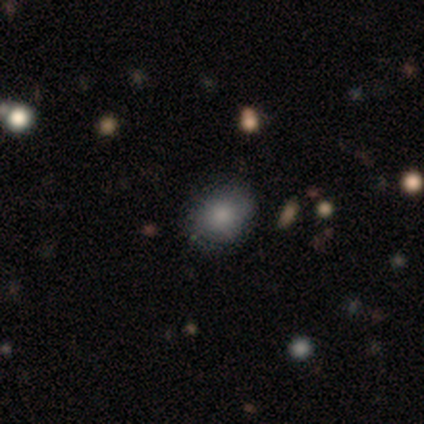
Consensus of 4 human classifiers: This appears to be a smooth galaxy with no disk features (75%) that is round (100%). Merging: none (100%).